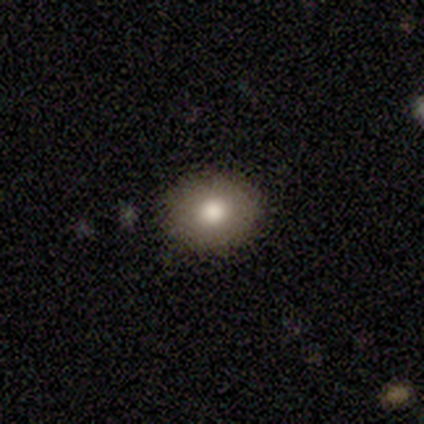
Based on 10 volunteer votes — Volunteers were most divided on "how rounded": round: 67%, in between: 33%, cigar-shaped: 0%. More confident: merging — none (100%); smooth or featured — smooth (90%).